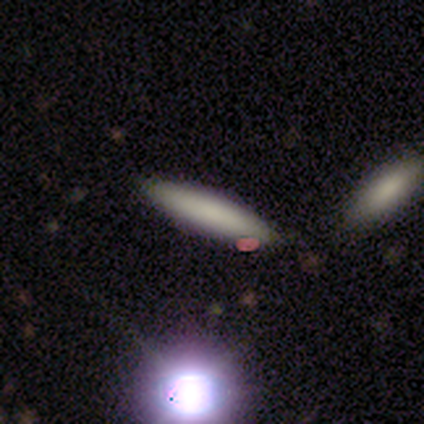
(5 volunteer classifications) Smooth or featured? smooth (100%)
How rounded? cigar-shaped (100%)
Merging? none (80%)